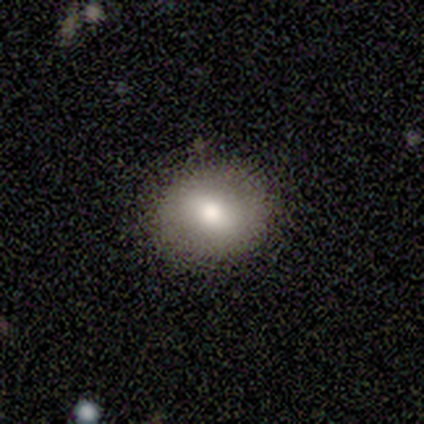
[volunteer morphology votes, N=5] Overall: smooth (80%). How rounded: round (50%, tied with in between). Merging: none (60%; minor disturbance 40%).